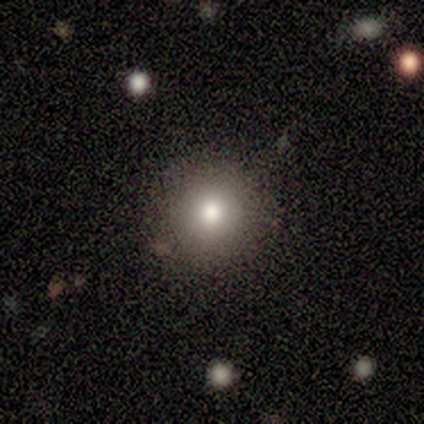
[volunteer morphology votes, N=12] type=smooth (92%); roundness=round (100%); merging=none (67%).